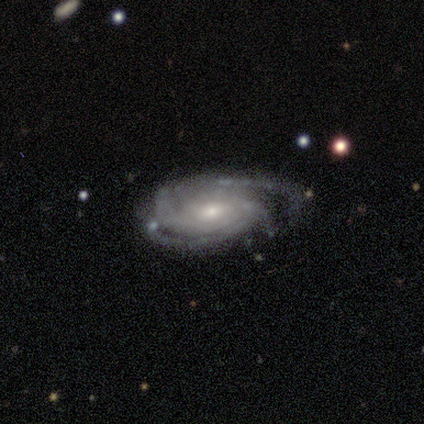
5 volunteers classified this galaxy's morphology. Smooth or featured? featured or disk (100%)
Edge-on disk? no (80%)
Bar? no (100%)
Spiral arms? yes (100%)
Spiral winding? medium (75%)
Spiral arm count? 3 (75%)
Bulge size? small (75%)
Merging? none (60%)